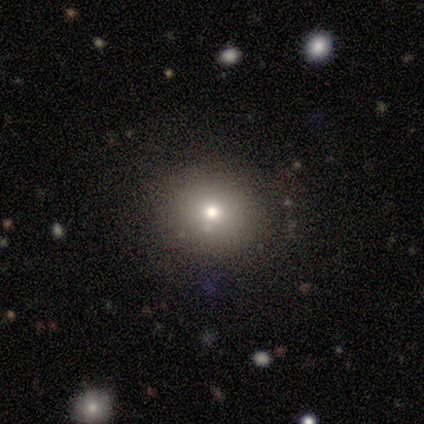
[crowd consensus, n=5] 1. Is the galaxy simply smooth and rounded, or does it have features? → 60% smooth, 20% featured or disk, 20% star or artifact.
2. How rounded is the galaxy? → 67% round, 33% in between, 0% cigar-shaped.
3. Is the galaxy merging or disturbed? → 100% none, 0% minor disturbance, 0% major disturbance, 0% merger.